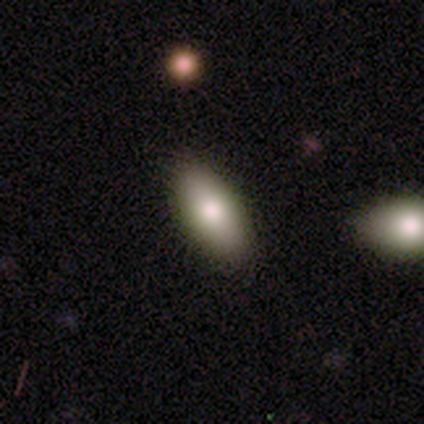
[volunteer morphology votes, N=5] type=smooth (100%); roundness=in between (100%); merging=none (100%).